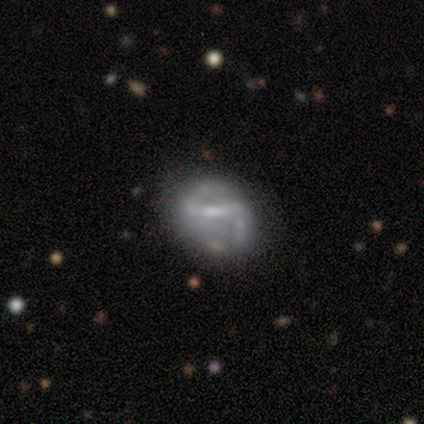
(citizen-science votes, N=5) Volunteers were most divided on "spiral arms" (2-way tie): yes: 50%, no: 50%; "bulge size" (2-way tie): moderate: 50%, small: 50%, dominant: 0%, large: 0%, none: 0%. More confident: edge-on disk — no (100%); spiral winding — medium (100%); spiral arm count — 2 (100%); smooth or featured — featured or disk (80%); bar — weak (75%); merging — minor disturbance (60%).